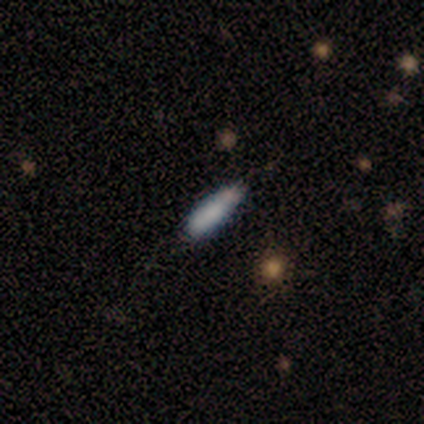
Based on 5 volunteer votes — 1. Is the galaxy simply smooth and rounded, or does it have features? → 80% smooth, 20% featured or disk, 0% star or artifact.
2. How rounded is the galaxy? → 75% in between, 25% cigar-shaped, 0% round.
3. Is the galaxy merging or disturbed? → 40% none (tied), 40% minor disturbance (tied), 20% merger, 0% major disturbance.